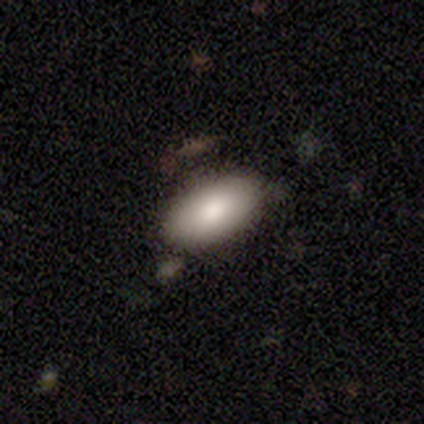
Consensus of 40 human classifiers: smooth_or_featured: smooth (p=0.90) [alt: featured or disk p=0.07]
how_rounded: in between (p=0.94) [alt: round p=0.03]
merging: none (p=0.49) [alt: minor disturbance p=0.05]